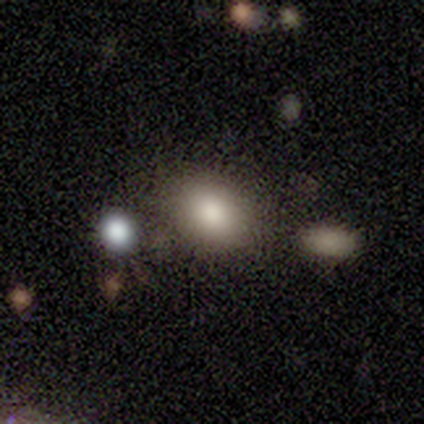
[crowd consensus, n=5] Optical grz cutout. It shows a smooth galaxy with no disk features (80%) that is round (75%). Merging: none (75%).